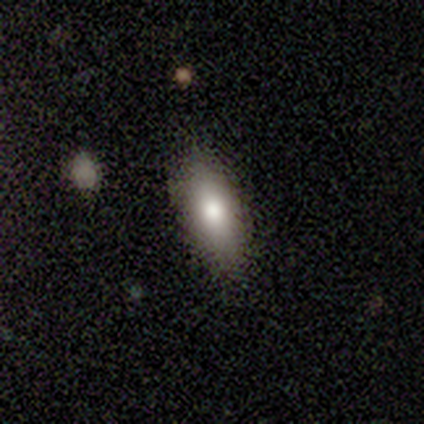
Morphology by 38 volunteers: smooth 89%, star or artifact 8%, featured or disk 3%. Down the decision tree: how rounded — in between (68%); merging — none (74%).